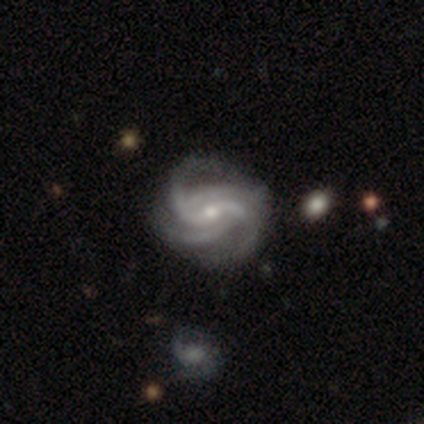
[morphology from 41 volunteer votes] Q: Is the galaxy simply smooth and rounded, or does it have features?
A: featured or disk — 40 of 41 (98%).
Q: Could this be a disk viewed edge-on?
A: no — 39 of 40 (98%).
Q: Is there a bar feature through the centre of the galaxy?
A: weak — 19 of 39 (49%).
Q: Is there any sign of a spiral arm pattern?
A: yes — 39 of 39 (100%).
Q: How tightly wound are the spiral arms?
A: medium — 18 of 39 (46%).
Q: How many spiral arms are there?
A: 2 — 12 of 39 (31%, tied with 4).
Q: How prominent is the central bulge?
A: small — 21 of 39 (54%).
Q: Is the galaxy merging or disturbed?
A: none — 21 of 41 (51%).